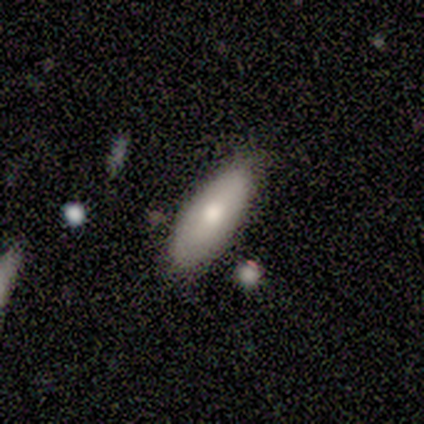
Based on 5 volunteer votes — Morphology: type=smooth (80%); roundness=in between (100%); merging=none (80%).